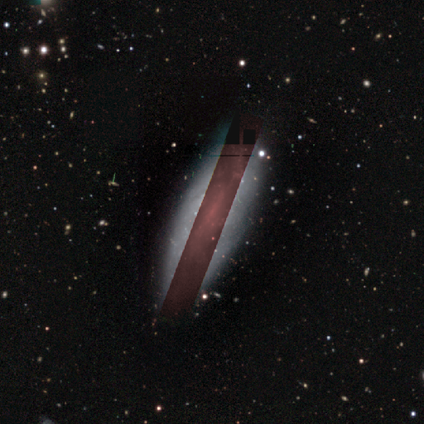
star or artifact 80%, featured or disk 20%, smooth 0%.